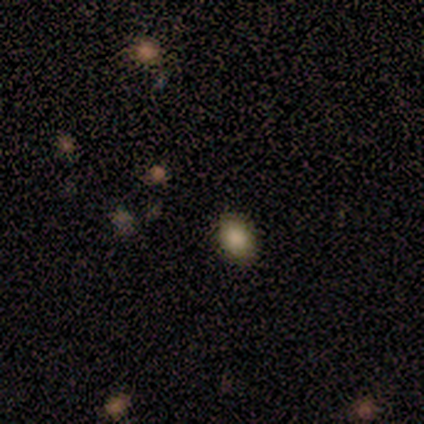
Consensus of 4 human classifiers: A smooth galaxy with no disk features (100%) that is round (50%, tied with in between). Merging: none (100%).